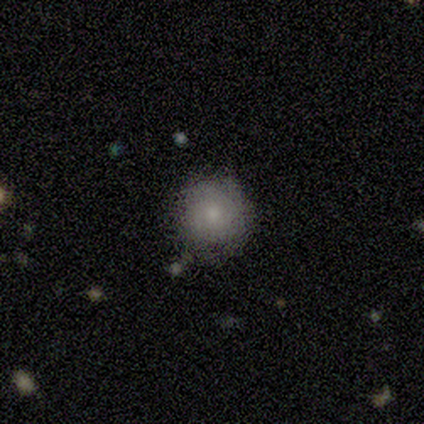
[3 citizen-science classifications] smooth 100%, featured or disk 0%, star or artifact 0%. Down the decision tree: how rounded — round (100%); merging — none (100%).